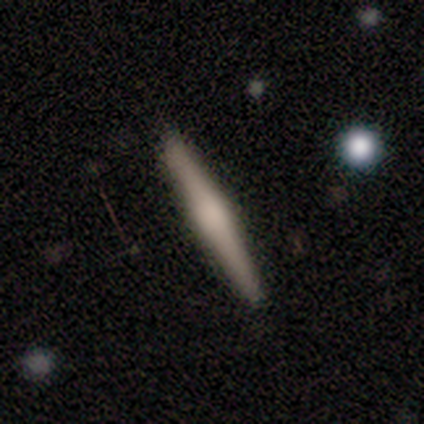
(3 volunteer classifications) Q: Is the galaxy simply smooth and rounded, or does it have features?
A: featured or disk — 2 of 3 (67%).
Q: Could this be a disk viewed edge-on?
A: yes — 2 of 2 (100%).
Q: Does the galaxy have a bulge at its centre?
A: none — 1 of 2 (50%, tied with rounded).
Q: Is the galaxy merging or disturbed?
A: none — 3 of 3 (100%).